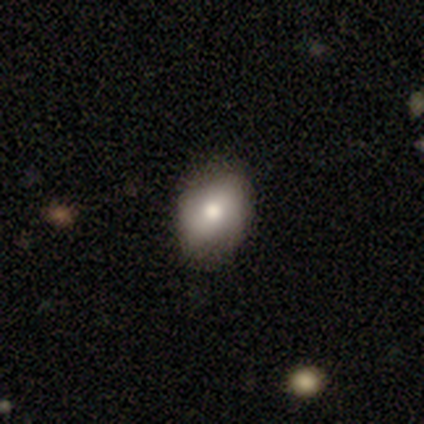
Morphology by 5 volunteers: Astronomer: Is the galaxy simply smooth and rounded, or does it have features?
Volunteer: smooth — 80%.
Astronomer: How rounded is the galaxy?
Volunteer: in between — 100%.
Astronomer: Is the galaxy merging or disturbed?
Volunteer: none — 100%.